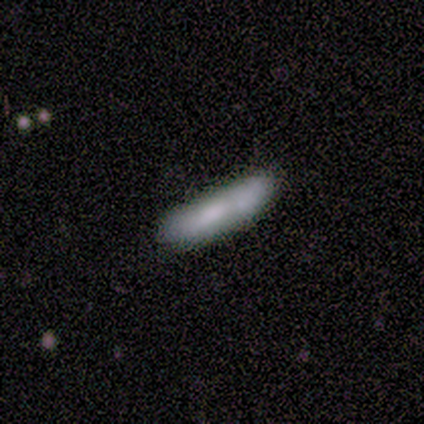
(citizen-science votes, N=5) Smooth or featured? 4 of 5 (80%) said smooth. How rounded? 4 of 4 (100%) said cigar-shaped. Merging? 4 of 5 (80%) said minor disturbance.